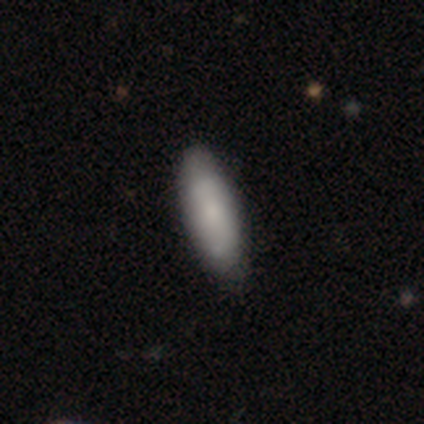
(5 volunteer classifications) Q: Smooth or featured?
A: smooth (60%); runner-up: featured or disk (20%)
Q: How rounded?
A: cigar-shaped (67%); runner-up: in between (33%)
Q: Merging?
A: none (100%)